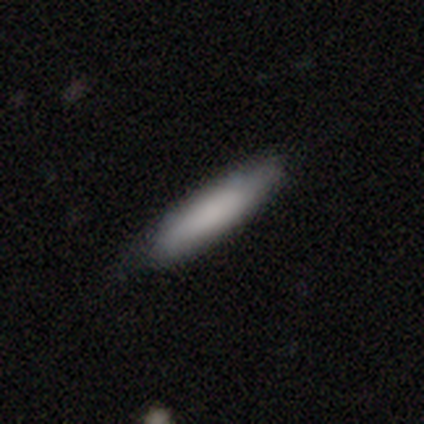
Smooth or featured: smooth — 78% (featured or disk — 17%)
How rounded: cigar-shaped — 87% (in between — 13%)
Merging: none — 81% (minor disturbance — 15%)